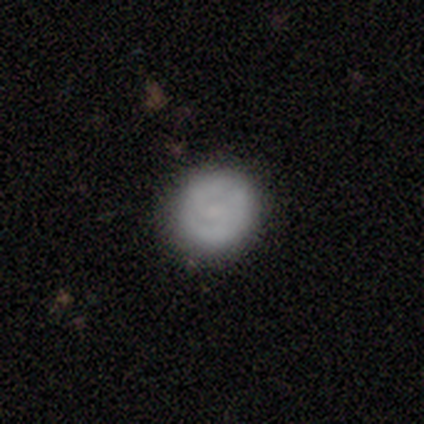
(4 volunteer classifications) Overall: smooth (50%; featured or disk 25%). How rounded: round (100%). Merging: none (100%).